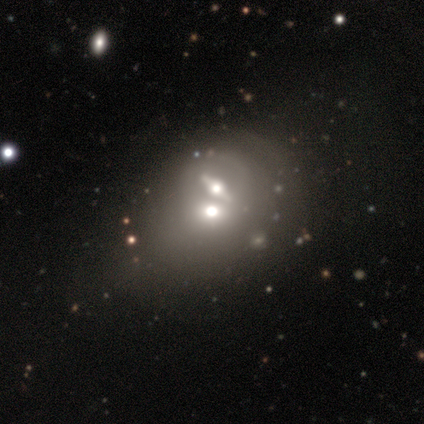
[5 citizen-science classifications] Morphology: type=featured or disk (80%); edge-on=no (75%); bar=no (67%); spiral arms=no (100%); bulge=moderate (67%); merging=merger (60%).